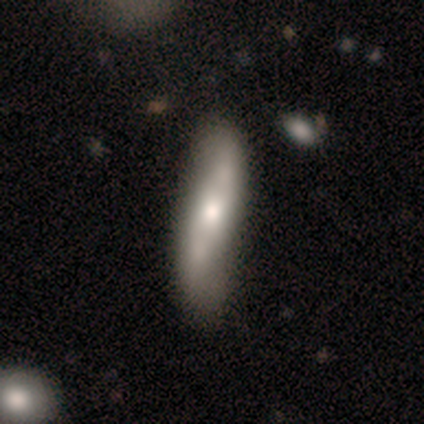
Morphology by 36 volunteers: Smooth or featured?
  - smooth: 53% *
  - featured or disk: 47%
  - star or artifact: 0%
How rounded?
  - cigar-shaped: 74% *
  - in between: 26%
  - round: 0%
Merging?
  - none: 67% *
  - minor disturbance: 25%
  - major disturbance: 6%
  - merger: 3%